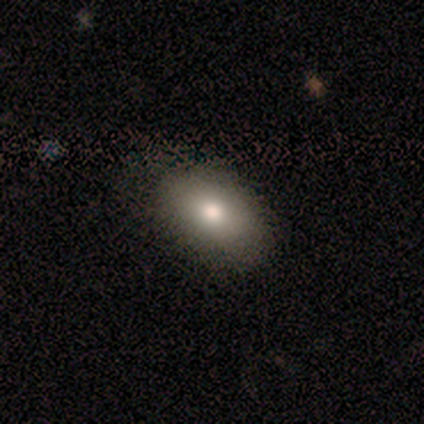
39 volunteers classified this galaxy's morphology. Smooth or featured? smooth (77%)
How rounded? in between (87%)
Merging? none (69%)